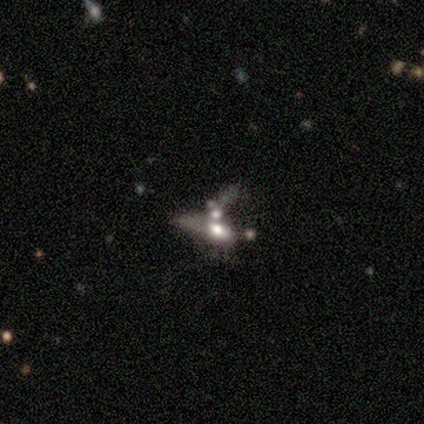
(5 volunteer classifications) Volunteers were most divided on "bulge size" (2-way tie): large: 50%, none: 50%, dominant: 0%, moderate: 0%, small: 0%. More confident: bar — no (100%); spiral arms — no (100%); merging — merger (80%); edge-on disk — no (67%); smooth or featured — featured or disk (60%).